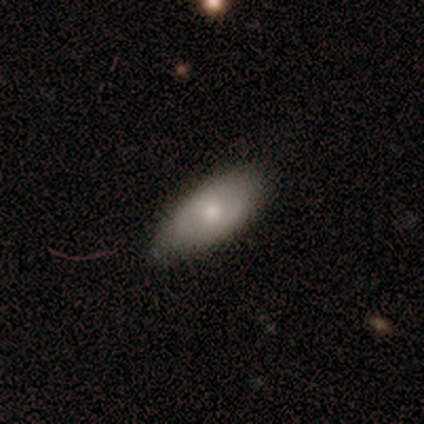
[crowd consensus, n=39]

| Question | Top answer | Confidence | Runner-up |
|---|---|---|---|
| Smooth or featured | smooth | 67% | featured or disk (31%) |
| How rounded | in between | 96% | round (4%) |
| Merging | none | 74% | minor disturbance (26%) |